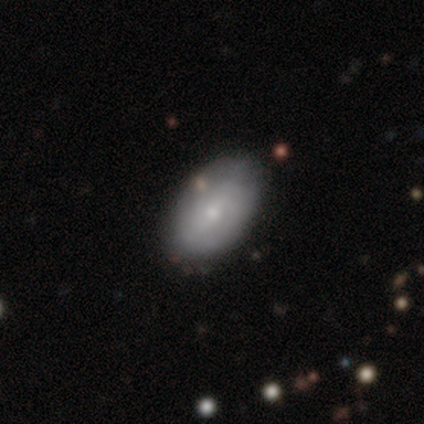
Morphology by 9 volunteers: smooth_or_featured: featured or disk (p=0.56) [alt: smooth p=0.44]
disk_edge_on: no (p=1.00)
bar: weak (p=0.40) [tied with: no p=0.40]
has_spiral_arms: yes (p=0.60) [alt: no p=0.40]
spiral_winding: medium (p=0.67) [alt: tight p=0.33]
spiral_arm_count: 2 (p=0.67) [alt: can't tell p=0.33]
bulge_size: small (p=0.80) [alt: moderate p=0.20]
merging: none (p=0.78) [alt: minor disturbance p=0.22]